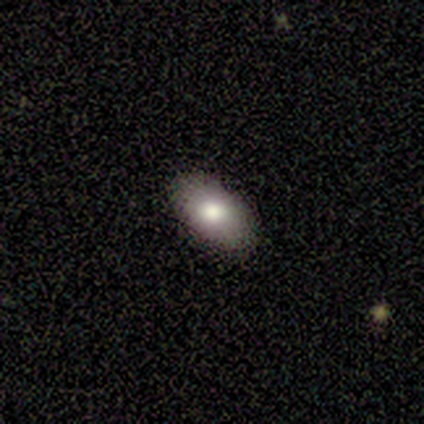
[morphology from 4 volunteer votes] Overall: smooth (100%). How rounded: in between (100%). Merging: none (100%).